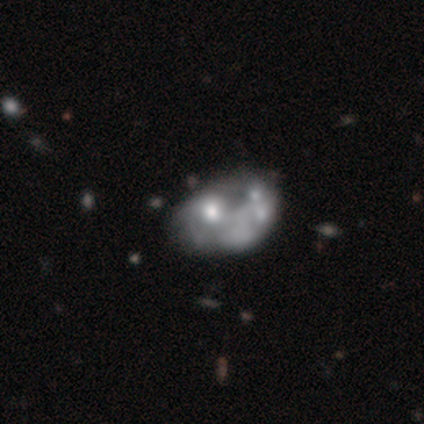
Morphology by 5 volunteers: A featured or disk galaxy (60%) with no bar (100%), no spiral arms (67%) and a small central bulge (67%).

Vote fractions:
- Smooth or featured? featured or disk: 60% / smooth: 40% / star or artifact: 0%
- Edge-on disk? no: 100% / yes: 0%
- Bar? no: 100% / strong: 0% / weak: 0%
- Spiral arms? no: 67% / yes: 33%
- Bulge size? small: 67% / moderate: 33% / dominant: 0% / large: 0% / none: 0%
- Merging? merger: 100% / none: 0% / minor disturbance: 0% / major disturbance: 0%